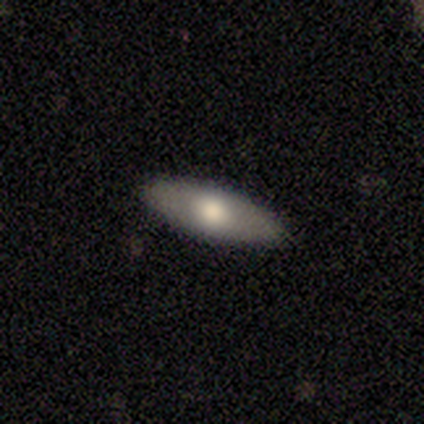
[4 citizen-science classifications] smooth_or_featured: smooth (p=1.00)
how_rounded: in between (p=1.00)
merging: none (p=1.00)